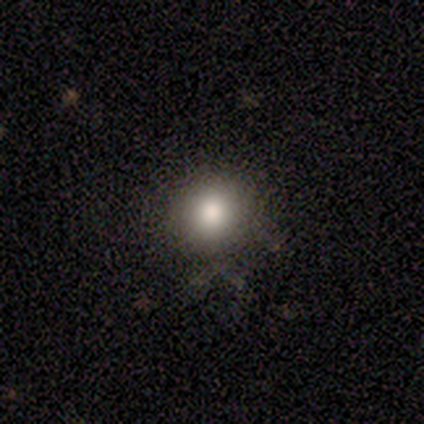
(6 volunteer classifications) Overall: smooth (83%). How rounded: round (100%). Merging: none (50%, tied with minor disturbance).